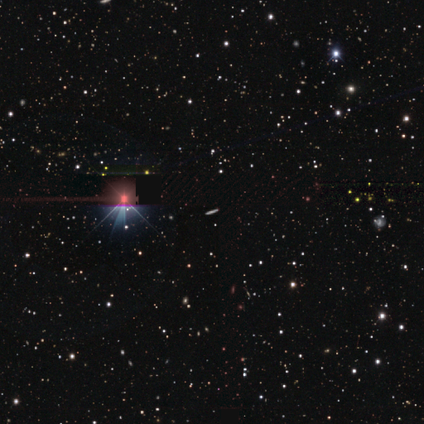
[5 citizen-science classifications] Volunteers were most divided on "smooth or featured": star or artifact: 80%, featured or disk: 20%, smooth: 0%.